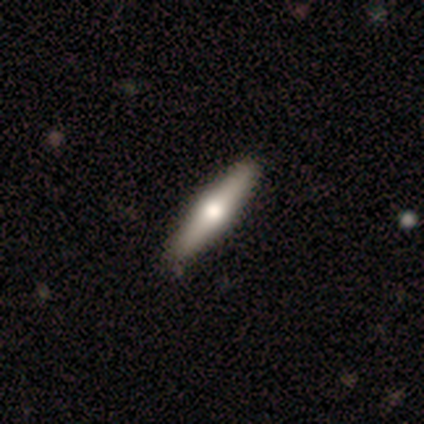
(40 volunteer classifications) This appears to be a featured or disk galaxy (50%) viewed edge-on (90%) with a rounded central bulge (89%). Merging: none (66%).